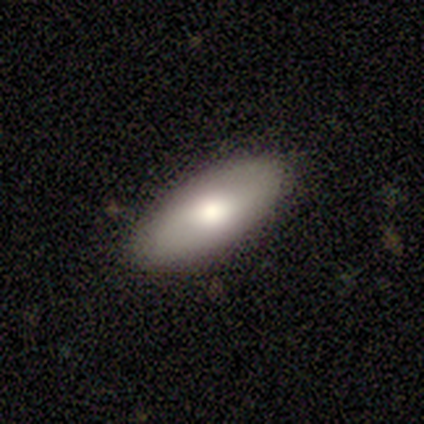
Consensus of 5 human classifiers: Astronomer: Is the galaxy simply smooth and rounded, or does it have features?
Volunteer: smooth — 80%.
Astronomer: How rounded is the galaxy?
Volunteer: in between — 100%.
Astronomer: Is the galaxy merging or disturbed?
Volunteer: none — 100%.